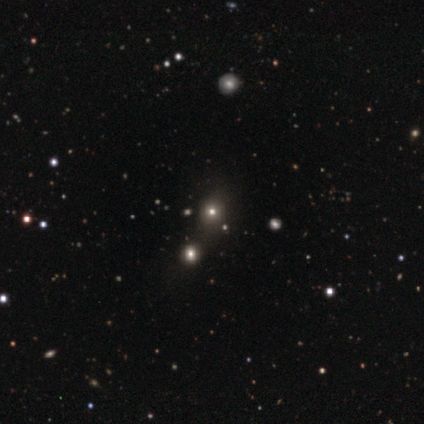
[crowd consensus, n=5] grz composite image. It shows a smooth galaxy with no disk features (80%) that is round (75%). Merging: none (50%).